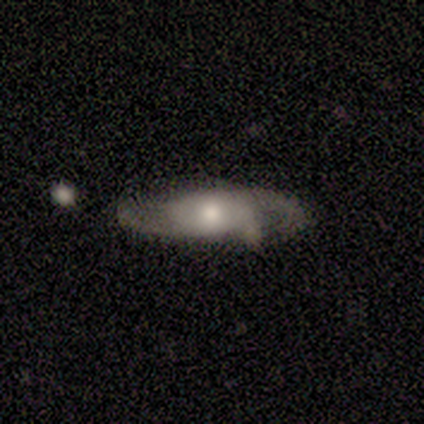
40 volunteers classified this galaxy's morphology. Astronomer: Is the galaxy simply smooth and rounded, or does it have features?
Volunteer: featured or disk — 68%.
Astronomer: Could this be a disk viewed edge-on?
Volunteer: no — 78%.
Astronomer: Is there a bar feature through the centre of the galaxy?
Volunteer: no — 100%.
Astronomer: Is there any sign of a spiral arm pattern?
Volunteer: yes — 86%.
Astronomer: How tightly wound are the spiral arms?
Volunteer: medium — 67%.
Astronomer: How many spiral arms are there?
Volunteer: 2 — 72%.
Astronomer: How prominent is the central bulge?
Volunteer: moderate — 71%.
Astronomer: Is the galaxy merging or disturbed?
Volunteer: none — 63%.